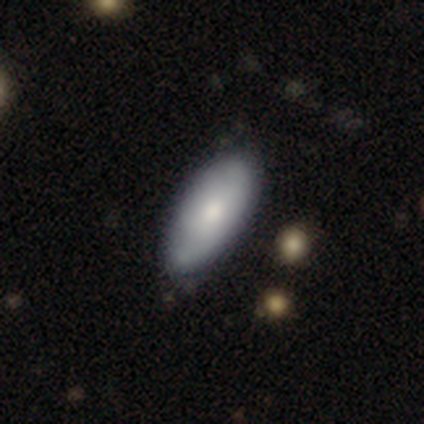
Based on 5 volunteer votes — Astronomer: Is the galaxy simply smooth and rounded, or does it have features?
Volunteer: smooth — 60%.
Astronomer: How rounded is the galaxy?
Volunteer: in between — 100%.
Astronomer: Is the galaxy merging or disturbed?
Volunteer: minor disturbance — 50%.